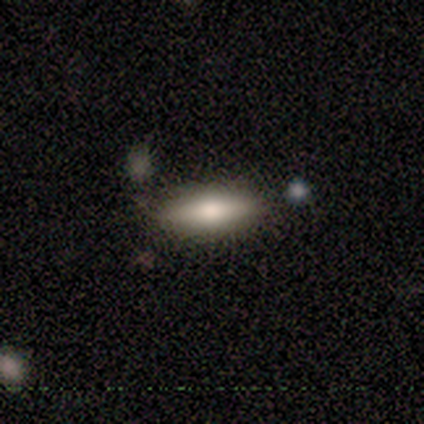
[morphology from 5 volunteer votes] smooth_or_featured: smooth (p=0.60) [alt: featured or disk p=0.20]
how_rounded: in between (p=0.67) [alt: cigar-shaped p=0.33]
merging: none (p=1.00)